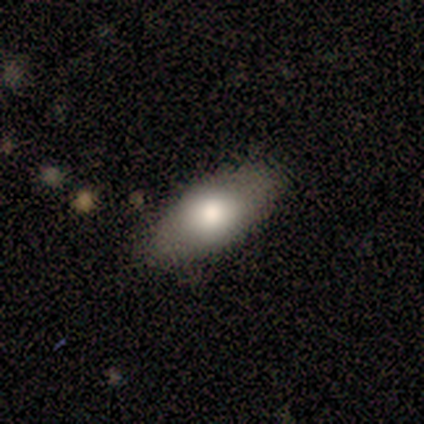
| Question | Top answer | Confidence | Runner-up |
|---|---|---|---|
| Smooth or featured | smooth | 80% | featured or disk (20%) |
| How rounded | in between | 100% | — |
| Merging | none | 80% | minor disturbance (20%) |